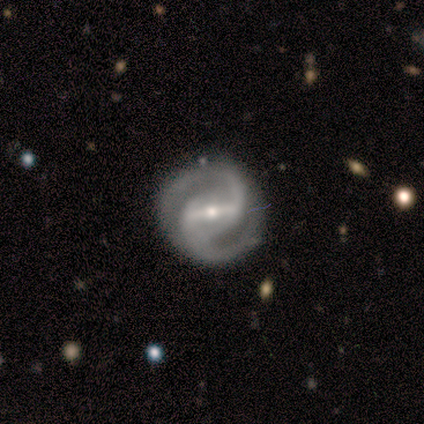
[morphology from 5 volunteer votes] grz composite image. It shows a featured or disk galaxy (100%) with a weak bar (75%), 2 (100%) loose (67%) spiral arms (75%) and a small central bulge (75%). Merging: none (80%).